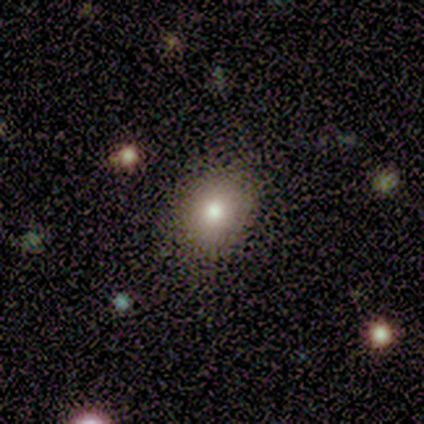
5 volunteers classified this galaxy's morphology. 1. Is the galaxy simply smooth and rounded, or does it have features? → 60% smooth, 40% star or artifact, 0% featured or disk.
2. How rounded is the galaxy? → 67% in between, 33% round, 0% cigar-shaped.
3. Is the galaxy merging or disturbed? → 100% none, 0% minor disturbance, 0% major disturbance, 0% merger.